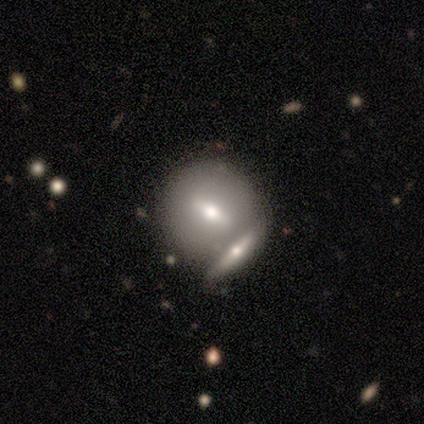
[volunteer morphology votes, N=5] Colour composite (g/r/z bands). It shows a featured or disk galaxy (80%) viewed edge-on (50%, tied with no) with a rounded central bulge (100%). Merging: none (60%).